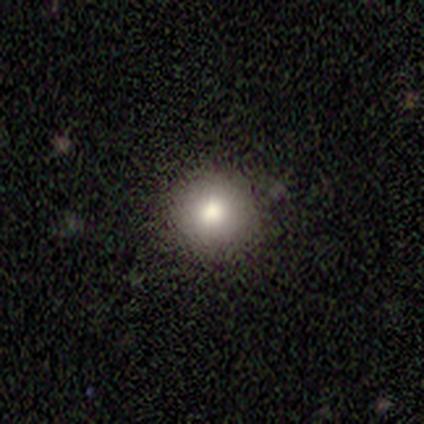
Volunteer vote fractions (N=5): Overall: smooth (80%). How rounded: round (100%). Merging: none (80%).